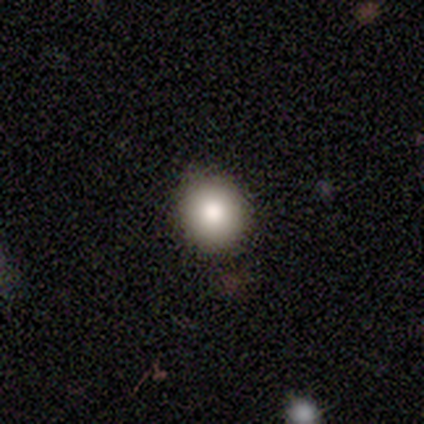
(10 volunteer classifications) smooth-or-featured: smooth: 100% | featured or disk: 0% | star or artifact: 0%
  how-rounded: round: 80% | in between: 20% | cigar-shaped: 0%
  merging: none: 90% | minor disturbance: 10% | major disturbance: 0% | merger: 0%